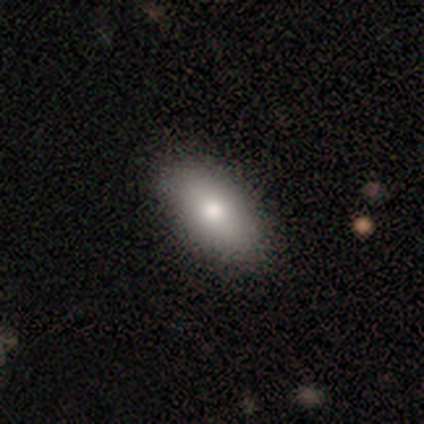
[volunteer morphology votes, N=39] smooth 90%, featured or disk 5%, star or artifact 5%. Down the decision tree: how rounded — in between (94%); merging — none (59%).